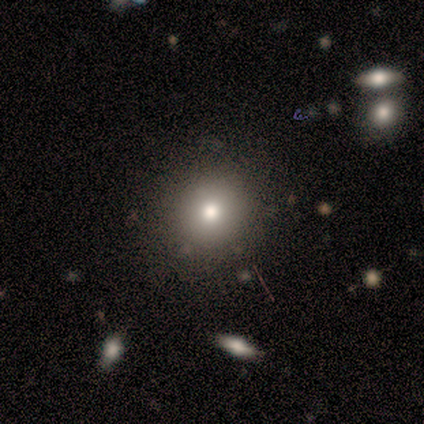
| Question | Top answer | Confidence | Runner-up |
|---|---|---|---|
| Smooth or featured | smooth | 60% | star or artifact (40%) |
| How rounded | round | 67% | in between (33%) |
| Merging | none | 100% | — |